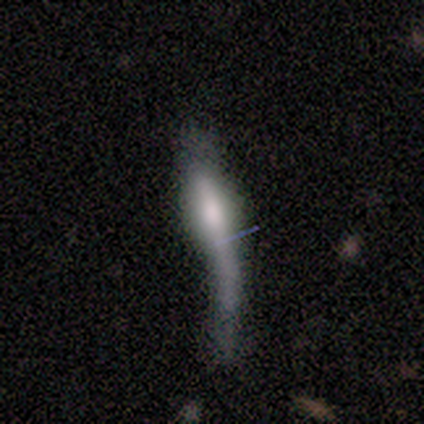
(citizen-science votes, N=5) Morphology: type=featured or disk (80%); edge-on=yes (50%, tied with no); edge-on bulge=boxy (50%, tied with rounded); merging=major disturbance (80%).